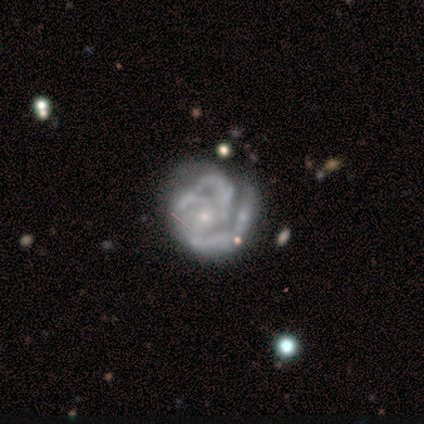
A featured or disk galaxy (84%) with no bar (83%), 3 (65%) tight (53%) spiral arms (94%) and a small central bulge (67%). Merging: none (51%).